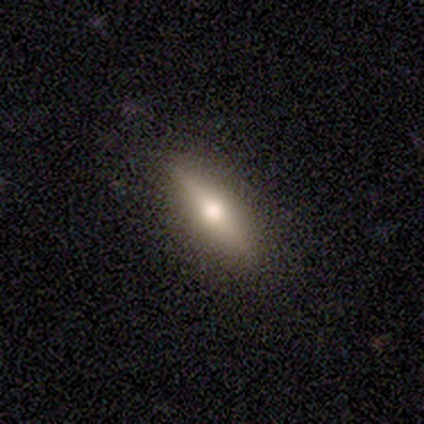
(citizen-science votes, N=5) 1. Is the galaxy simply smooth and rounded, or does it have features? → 60% featured or disk, 40% smooth, 0% star or artifact.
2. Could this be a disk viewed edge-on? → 100% yes, 0% no.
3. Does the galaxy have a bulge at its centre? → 100% rounded, 0% boxy, 0% none.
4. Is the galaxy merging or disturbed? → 100% none, 0% minor disturbance, 0% major disturbance, 0% merger.